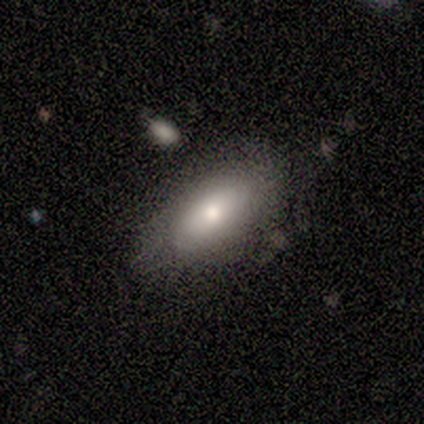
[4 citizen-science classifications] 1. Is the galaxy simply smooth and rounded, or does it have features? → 75% smooth, 25% featured or disk, 0% star or artifact.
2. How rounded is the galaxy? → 100% in between, 0% round, 0% cigar-shaped.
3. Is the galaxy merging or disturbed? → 75% none, 25% minor disturbance, 0% major disturbance, 0% merger.